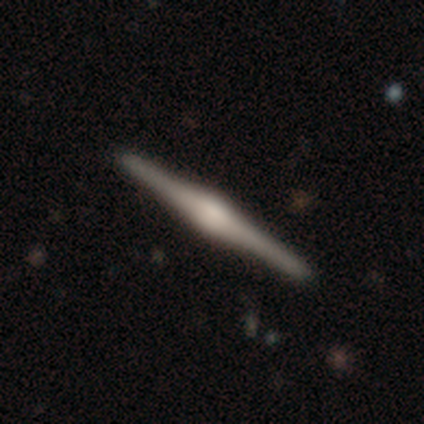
Overall: featured or disk (80%). Edge-on disk: yes (100%). Edge-on bulge: rounded (75%). Merging: none (100%).